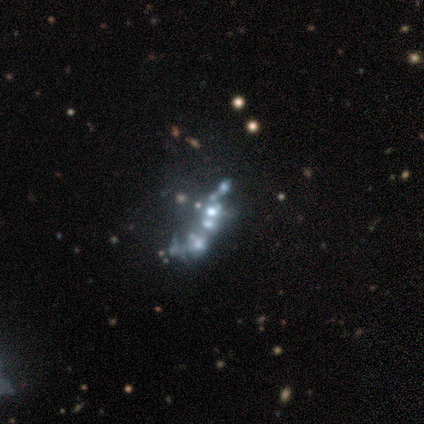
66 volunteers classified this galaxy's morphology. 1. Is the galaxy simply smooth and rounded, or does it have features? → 47% featured or disk, 39% star or artifact, 14% smooth.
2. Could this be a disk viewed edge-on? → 97% no, 3% yes.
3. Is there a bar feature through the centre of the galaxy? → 100% no, 0% strong, 0% weak.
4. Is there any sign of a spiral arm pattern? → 97% no, 3% yes.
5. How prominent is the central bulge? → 67% none, 17% moderate, 13% small, 3% dominant, 0% large.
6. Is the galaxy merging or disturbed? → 42% merger, 28% none, 22% major disturbance, 8% minor disturbance.